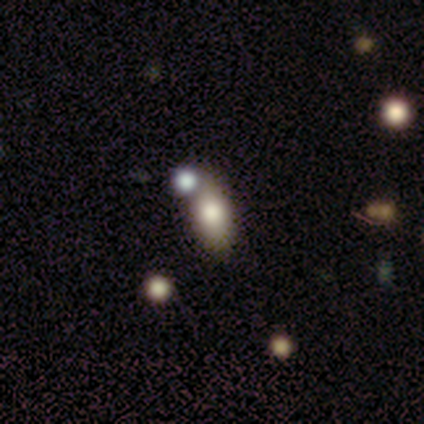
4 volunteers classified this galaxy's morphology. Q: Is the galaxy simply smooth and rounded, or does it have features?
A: smooth — 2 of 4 (50%).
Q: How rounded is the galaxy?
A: in between — 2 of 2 (100%).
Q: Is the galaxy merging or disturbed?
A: none — 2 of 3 (67%).